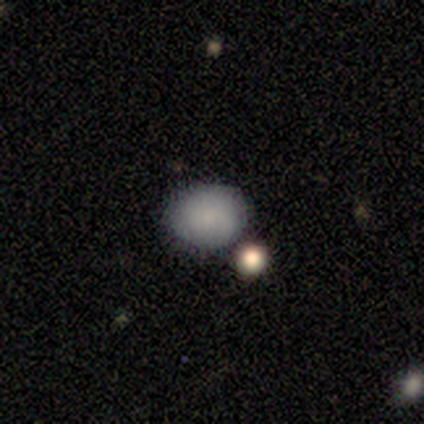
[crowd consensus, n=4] smooth 100%, featured or disk 0%, star or artifact 0%. Down the decision tree: how rounded — round (50%, tied with in between); merging — none (75%).